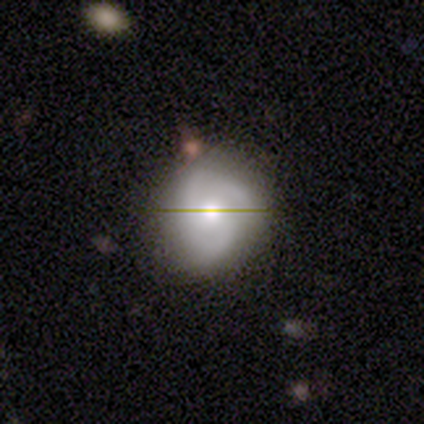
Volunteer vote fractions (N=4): Morphology: type=smooth (50%, tied with featured or disk); roundness=round (100%); merging=none (75%).